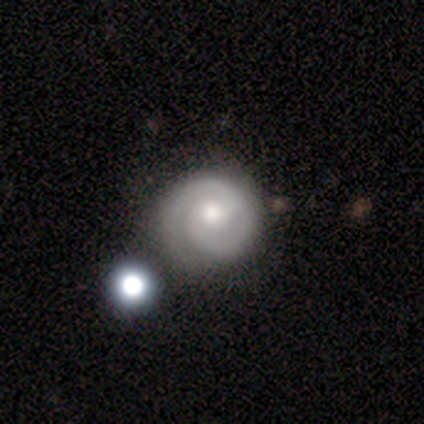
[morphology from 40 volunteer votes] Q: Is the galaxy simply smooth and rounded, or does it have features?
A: featured or disk — 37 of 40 (92%).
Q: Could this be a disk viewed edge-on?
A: no — 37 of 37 (100%).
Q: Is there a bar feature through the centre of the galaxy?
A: no — 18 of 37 (49%).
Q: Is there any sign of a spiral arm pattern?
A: yes — 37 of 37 (100%).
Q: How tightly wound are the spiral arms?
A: tight — 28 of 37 (76%).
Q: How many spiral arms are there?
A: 2 — 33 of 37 (89%).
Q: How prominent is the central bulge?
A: moderate — 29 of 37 (78%).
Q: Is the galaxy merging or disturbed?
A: none — 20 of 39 (51%).